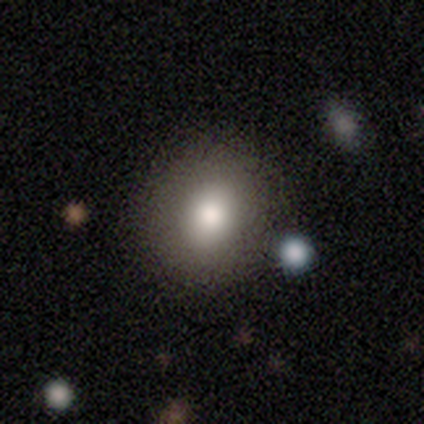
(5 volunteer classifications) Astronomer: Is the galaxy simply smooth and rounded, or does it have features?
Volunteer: smooth — 80%.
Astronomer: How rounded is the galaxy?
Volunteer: round — 100%.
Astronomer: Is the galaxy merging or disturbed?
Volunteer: none — 100%.